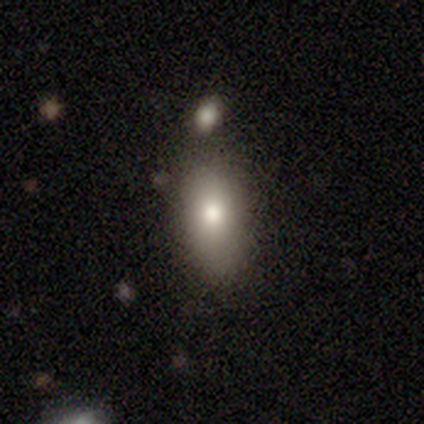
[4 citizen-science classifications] Volunteers were most divided on "smooth or featured": smooth: 75%, featured or disk: 25%, star or artifact: 0%. More confident: how rounded — in between (100%); merging — none (100%).